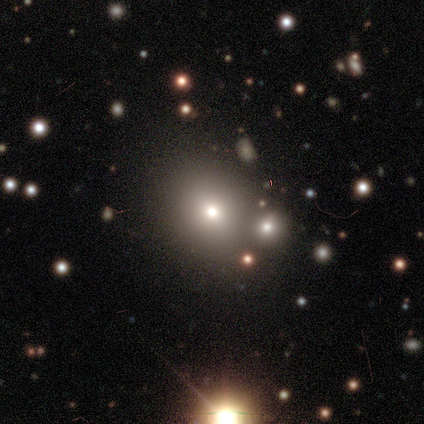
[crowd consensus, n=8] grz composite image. It shows a smooth galaxy with no disk features (75%) that is round (67%). Merging: none (100%).